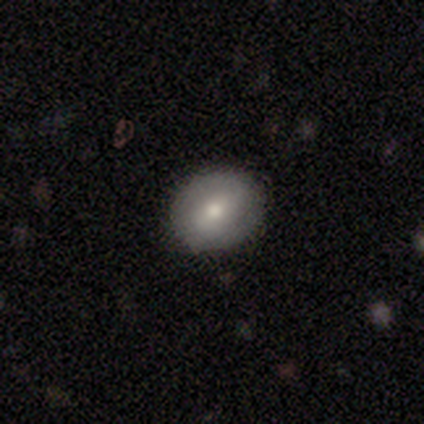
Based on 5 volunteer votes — Smooth or featured? 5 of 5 (100%) said smooth. How rounded? 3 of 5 (60%) said round. Merging? 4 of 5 (80%) said none.